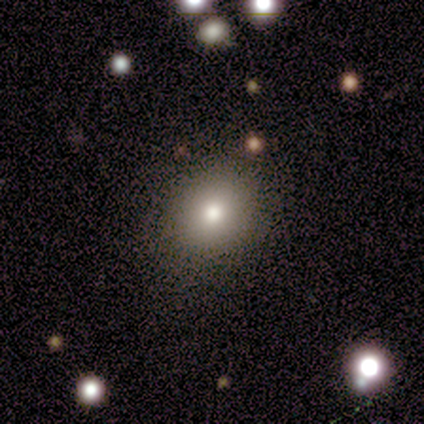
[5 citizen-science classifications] This is clearly a smooth galaxy (80%). How rounded: likely round (75%). Merging: clearly none (100%).